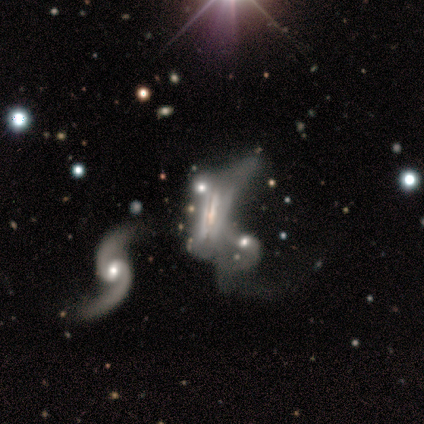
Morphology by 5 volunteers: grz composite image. It shows a featured or disk galaxy (80%) with a strong bar (33%, tied with weak and no), 2 (100%) loose (100%) spiral arms (67%) and a moderate central bulge (67%). Merging: merger (50%).